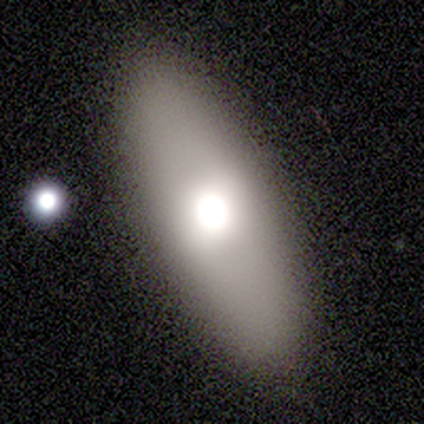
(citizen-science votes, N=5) Smooth or featured? 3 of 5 (60%) said smooth. How rounded? 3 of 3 (100%) said in between. Merging? 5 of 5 (100%) said none.